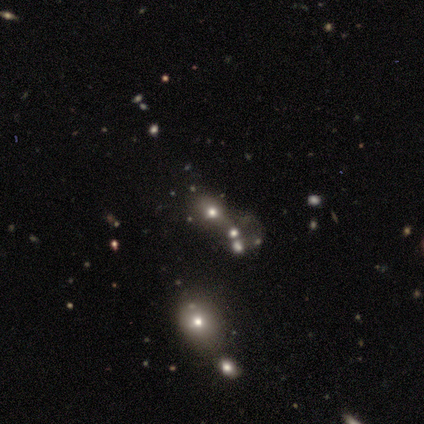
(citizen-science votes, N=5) Morphology: type=smooth (40%, tied with star or artifact); roundness=round (100%); merging=none (67%).